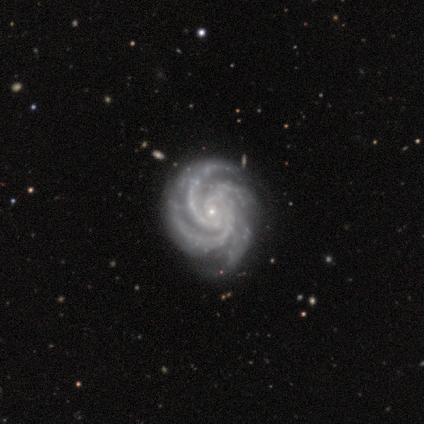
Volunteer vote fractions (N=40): A featured or disk galaxy (92%) with no bar (81%), 3 (49%) tight (84%) spiral arms (100%) and a small central bulge (92%).

Vote fractions:
- Smooth or featured? featured or disk: 92% / star or artifact: 5% / smooth: 2%
- Edge-on disk? no: 100% / yes: 0%
- Bar? no: 81% / weak: 11% / strong: 8%
- Spiral arms? yes: 100% / no: 0%
- Spiral winding? tight: 84% / medium: 16% / loose: 0%
- Spiral arm count? 3: 49% / 4: 41% / more than 4: 5% / 2: 3% / can't tell: 3% / 1: 0%
- Bulge size? small: 92% / moderate: 5% / none: 3% / dominant: 0% / large: 0%
- Merging? none: 39% / major disturbance: 5% / merger: 5% / minor disturbance: 3%